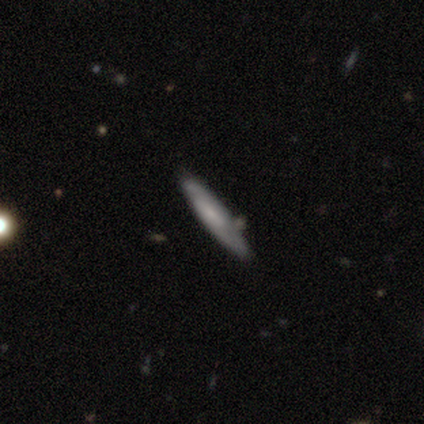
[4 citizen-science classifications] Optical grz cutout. It shows a smooth galaxy with no disk features (75%) that is cigar-shaped (100%). Merging: none (75%).